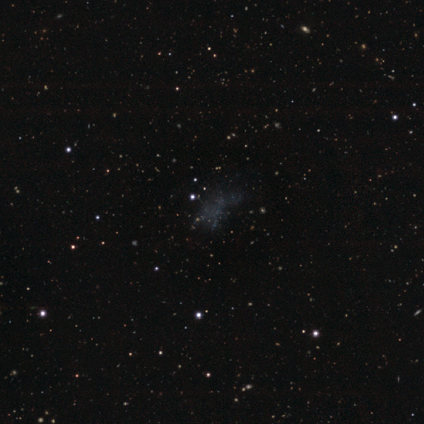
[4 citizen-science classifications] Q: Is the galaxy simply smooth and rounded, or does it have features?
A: smooth — 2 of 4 (50%, tied with featured or disk).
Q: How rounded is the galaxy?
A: round — 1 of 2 (50%, tied with in between).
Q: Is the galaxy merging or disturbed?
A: major disturbance — 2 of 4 (50%).